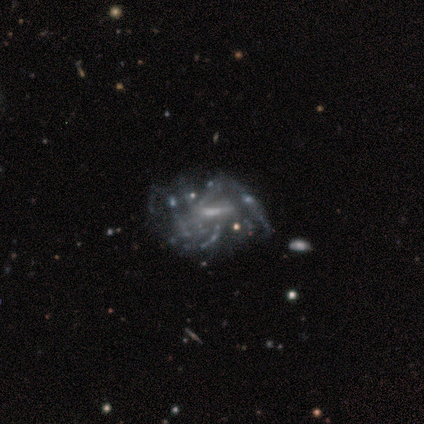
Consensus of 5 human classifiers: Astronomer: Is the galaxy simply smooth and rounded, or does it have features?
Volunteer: featured or disk — 100%.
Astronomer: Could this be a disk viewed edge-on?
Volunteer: no — 100%.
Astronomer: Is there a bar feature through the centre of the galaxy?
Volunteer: strong — 40%, tied with weak at 40%.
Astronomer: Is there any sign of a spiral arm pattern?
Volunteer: yes — 60% (runner-up: no, 40%).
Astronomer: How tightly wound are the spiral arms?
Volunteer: medium — 67%.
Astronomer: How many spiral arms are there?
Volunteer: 4 — 33%, tied with more than 4 and can't tell at 33%.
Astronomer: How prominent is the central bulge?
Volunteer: moderate — 40%, tied with small at 40%.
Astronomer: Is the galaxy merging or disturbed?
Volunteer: major disturbance — 60%.